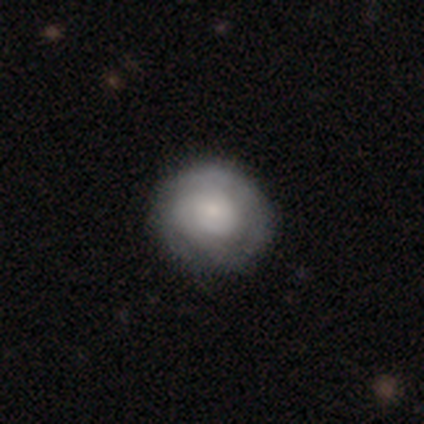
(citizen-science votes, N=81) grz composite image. It shows a featured or disk galaxy (52%) with no bar (83%), tight (65%) spiral arms (74%) and a small central bulge (71%). Merging: none (79%).